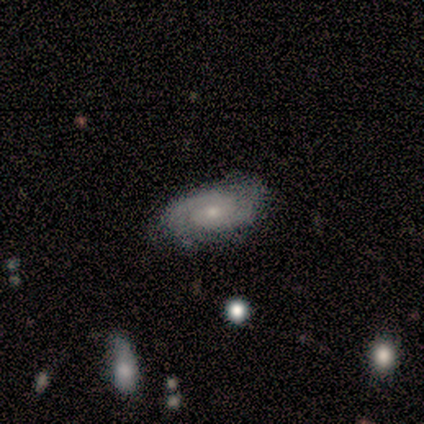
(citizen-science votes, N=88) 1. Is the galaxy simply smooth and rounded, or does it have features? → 84% featured or disk, 9% smooth, 7% star or artifact.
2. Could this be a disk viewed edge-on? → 93% no, 7% yes.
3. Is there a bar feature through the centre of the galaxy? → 77% no, 20% weak, 3% strong.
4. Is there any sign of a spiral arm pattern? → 97% yes, 3% no.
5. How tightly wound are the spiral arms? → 57% tight, 39% medium, 4% loose.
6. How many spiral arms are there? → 78% 2, 16% can't tell, 3% 4, 1% 1, 1% more than 4, 0% 3.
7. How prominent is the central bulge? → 67% small, 30% moderate, 3% large, 0% dominant, 0% none.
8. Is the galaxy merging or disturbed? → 76% none, 20% minor disturbance, 2% major disturbance, 2% merger.